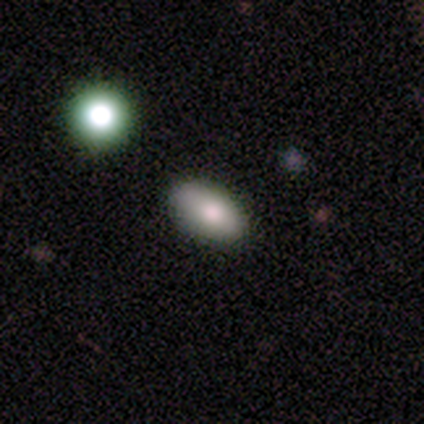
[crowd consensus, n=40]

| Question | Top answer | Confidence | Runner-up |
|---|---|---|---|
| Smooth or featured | smooth | 82% | featured or disk (10%) |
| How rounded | in between | 97% | cigar-shaped (3%) |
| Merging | none | 84% | minor disturbance (11%) |